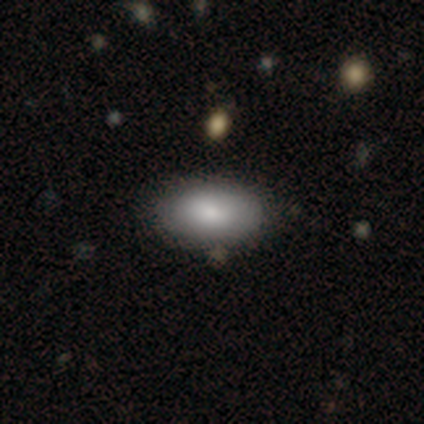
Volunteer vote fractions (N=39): Overall: smooth (74%). How rounded: in between (100%). Merging: none (66%).